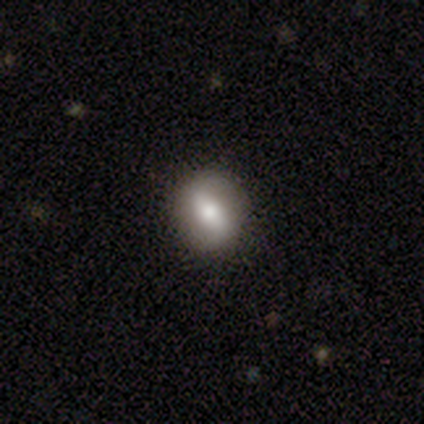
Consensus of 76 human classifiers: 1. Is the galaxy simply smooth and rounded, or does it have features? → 53% smooth, 45% featured or disk, 3% star or artifact.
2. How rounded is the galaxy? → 70% round, 30% in between, 0% cigar-shaped.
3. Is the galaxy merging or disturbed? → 55% none, 4% minor disturbance, 1% major disturbance, 0% merger.